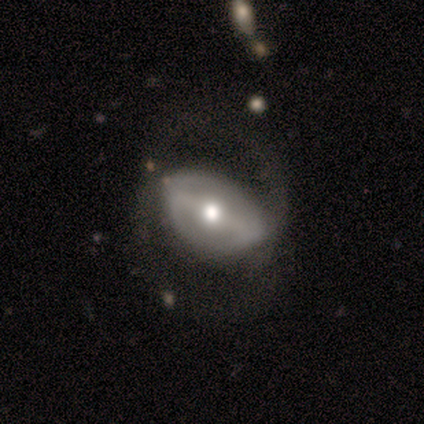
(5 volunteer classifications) A featured or disk galaxy (80%) with a strong bar (33%, tied with weak and no), 2 (50%, tied with can't tell) medium (50%, tied with loose) spiral arms (67%) and a moderate central bulge (100%). Merging: major disturbance (60%).